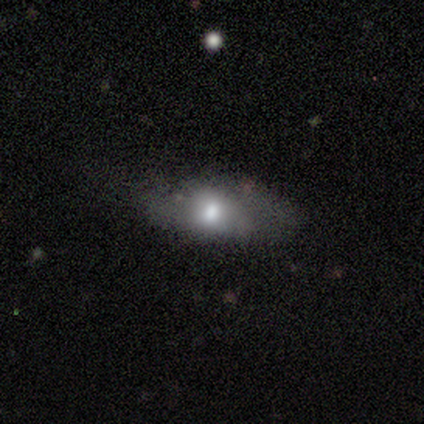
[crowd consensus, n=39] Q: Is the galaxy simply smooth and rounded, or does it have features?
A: smooth — 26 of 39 (67%).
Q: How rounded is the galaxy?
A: in between — 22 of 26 (85%).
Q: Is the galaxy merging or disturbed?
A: minor disturbance — 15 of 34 (44%).